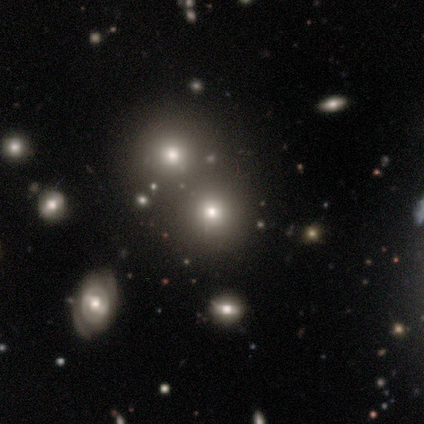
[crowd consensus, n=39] This appears to be a smooth galaxy with no disk features (77%) that is round (93%). Merging: none (37%, tied with merger).